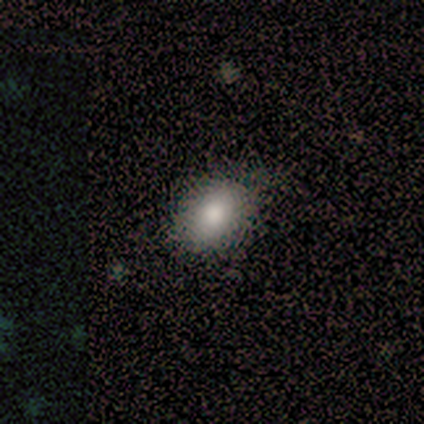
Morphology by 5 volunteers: A smooth galaxy with no disk features (80%) that is in between round and cigar-shaped (75%).

Vote fractions:
- Smooth or featured? smooth: 80% / featured or disk: 20% / star or artifact: 0%
- How rounded? in between: 75% / round: 25% / cigar-shaped: 0%
- Merging? none: 80% / minor disturbance: 20% / major disturbance: 0% / merger: 0%